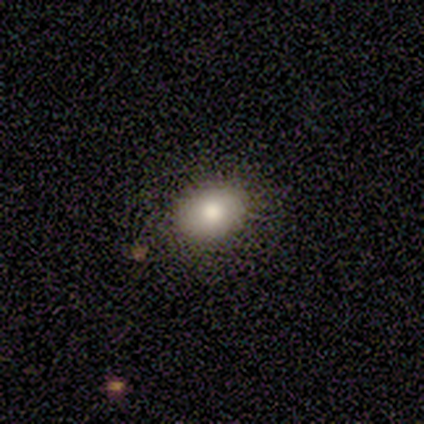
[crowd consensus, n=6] Q: Smooth or featured?
A: smooth (67%); runner-up: featured or disk (17%)
Q: How rounded?
A: round (50%); tied with: in between (50%)
Q: Merging?
A: none (80%); runner-up: minor disturbance (20%)